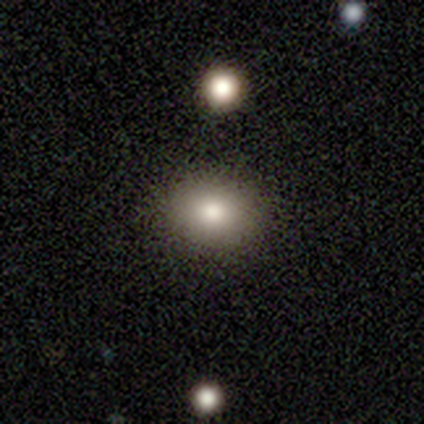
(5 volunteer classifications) Q: Smooth or featured?
A: smooth (100%)
Q: How rounded?
A: round (60%); runner-up: in between (40%)
Q: Merging?
A: none (80%); runner-up: minor disturbance (20%)